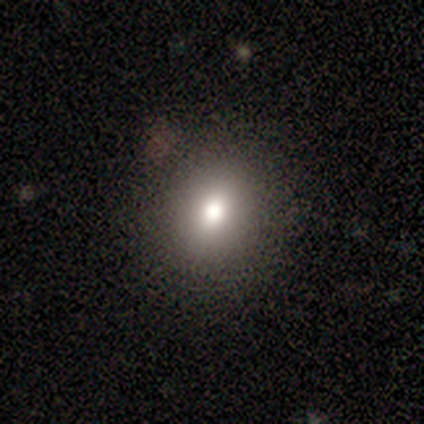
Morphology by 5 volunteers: type=smooth (80%); roundness=round (50%, tied with in between); merging=none (100%).